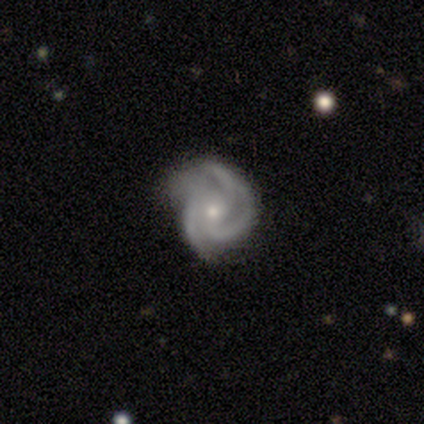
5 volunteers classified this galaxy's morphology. Overall: featured or disk (100%). Edge-on disk: no (100%). Bar: no (80%). Spiral arms: yes (100%). Spiral arm count: 3 (80%). Spiral winding: medium (60%; tight 40%). Bulge size: small (80%). Merging: none (80%).